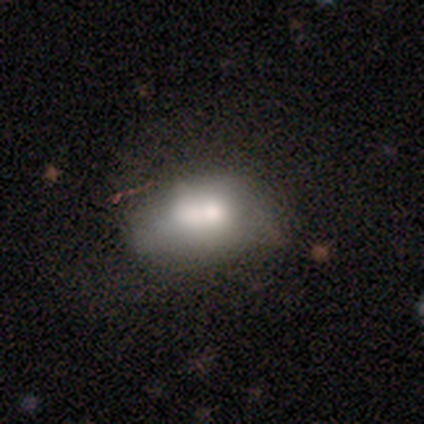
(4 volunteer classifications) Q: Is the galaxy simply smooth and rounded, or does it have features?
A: smooth — 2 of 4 (50%, tied with featured or disk).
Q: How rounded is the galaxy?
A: in between — 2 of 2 (100%).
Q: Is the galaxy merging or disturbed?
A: merger — 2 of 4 (50%).